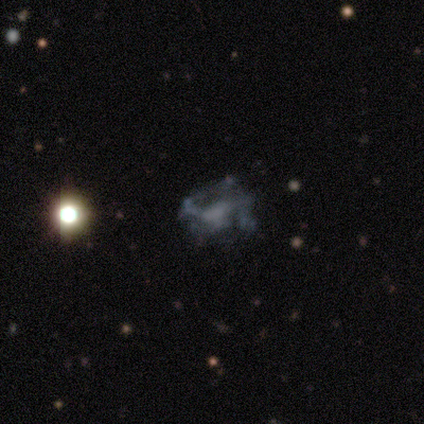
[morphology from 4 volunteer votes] type=featured or disk (50%); edge-on=no (100%); bar=no (100%); spiral arms=no (100%); bulge=none (100%); merging=none (67%).